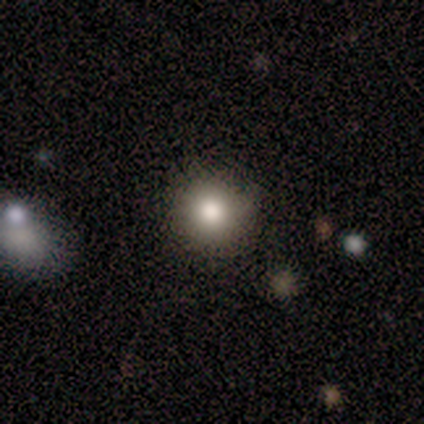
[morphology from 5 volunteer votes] type=smooth (80%); roundness=round (75%); merging=none (100%).